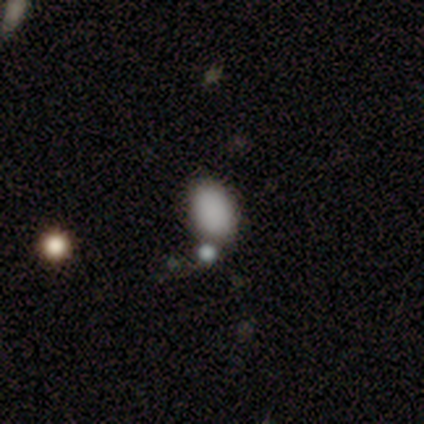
This is clearly a smooth galaxy (80%). How rounded: clearly in between (100%). Merging: likely merger (60%).